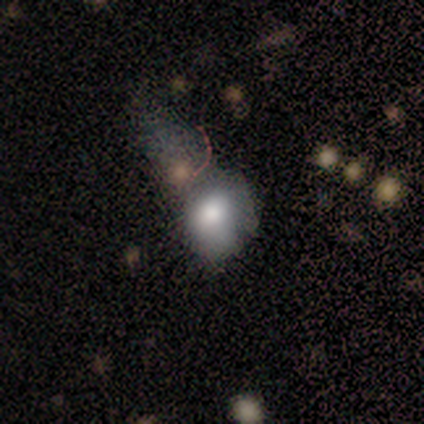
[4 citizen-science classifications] Morphology: type=smooth (50%); roundness=round (50%, tied with in between); merging=merger (100%).